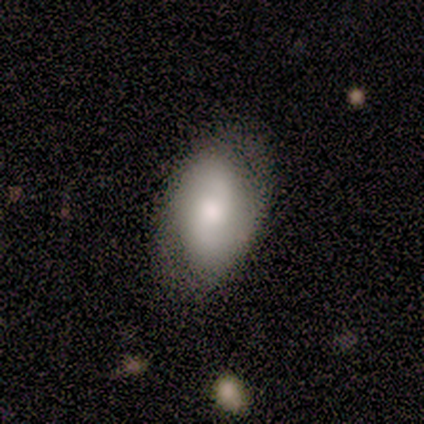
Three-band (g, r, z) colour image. It shows a featured or disk galaxy (60%) with no bar (67%), 2 (67%) tight (33%, tied with medium and loose) spiral arms (100%) and a large central bulge (33%, tied with moderate and small). Merging: none (80%).